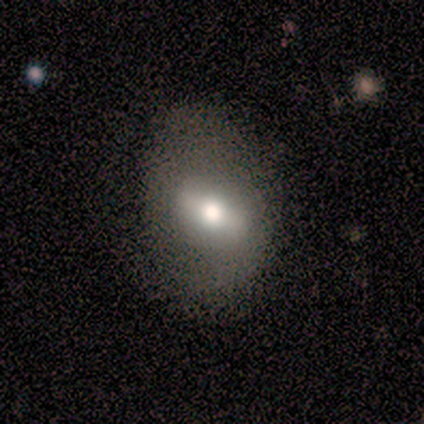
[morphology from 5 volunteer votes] smooth-or-featured: smooth: 40% (tied) | featured or disk: 40% (tied) | star or artifact: 20%
  how-rounded: in between: 100% | round: 0% | cigar-shaped: 0%
  merging: none: 100% | minor disturbance: 0% | major disturbance: 0% | merger: 0%